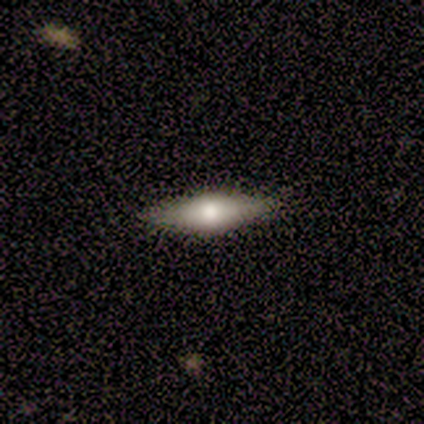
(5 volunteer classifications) Volunteers were most divided on "smooth or featured": smooth: 60%, featured or disk: 40%, star or artifact: 0%. More confident: merging — none (100%); how rounded — cigar-shaped (67%).